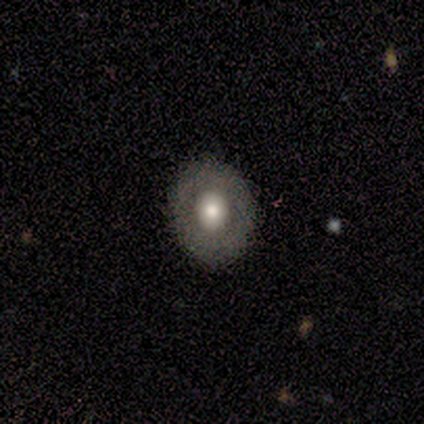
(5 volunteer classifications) Morphology: type=smooth (80%); roundness=round (50%, tied with in between); merging=none (100%).